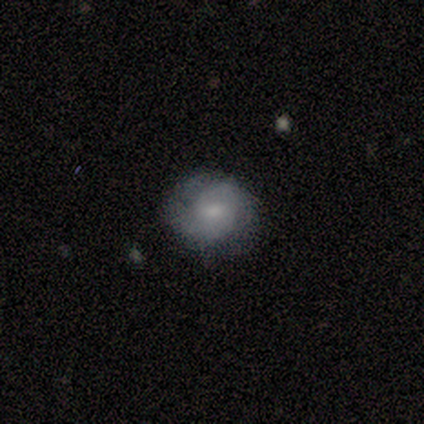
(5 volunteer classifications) Morphology: type=featured or disk (60%); edge-on=no (100%); bar=no (67%); spiral arms=yes (67%); winding=tight (50%, tied with medium); arm count=1 (50%, tied with can't tell); bulge=large (33%, tied with small and none); merging=none (80%).